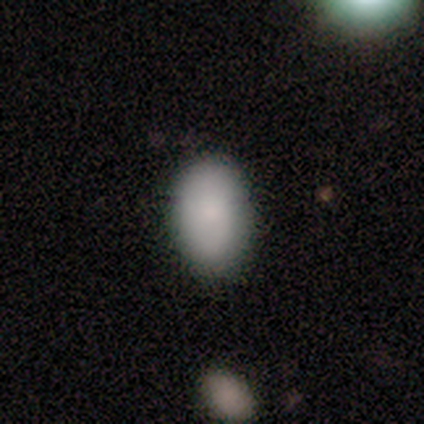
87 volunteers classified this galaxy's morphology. smooth 83%, star or artifact 10%, featured or disk 7%. Down the decision tree: how rounded — in between (93%); merging — none (82%).